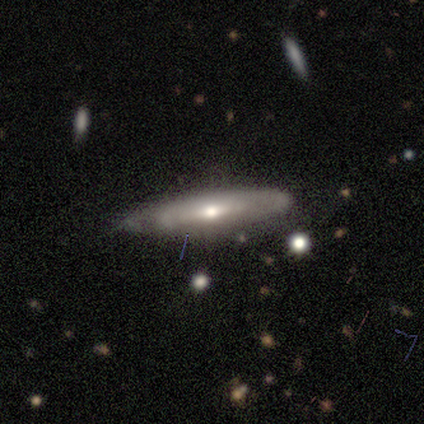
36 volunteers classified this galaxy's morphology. A featured or disk galaxy (50%) viewed edge-on (72%) with a rounded central bulge (69%).

Vote fractions:
- Smooth or featured? featured or disk: 50% / smooth: 47% / star or artifact: 3%
- Edge-on disk? yes: 72% / no: 28%
- Edge-on bulge? rounded: 69% / none: 31% / boxy: 0%
- Merging? none: 63% / minor disturbance: 31% / merger: 6% / major disturbance: 0%